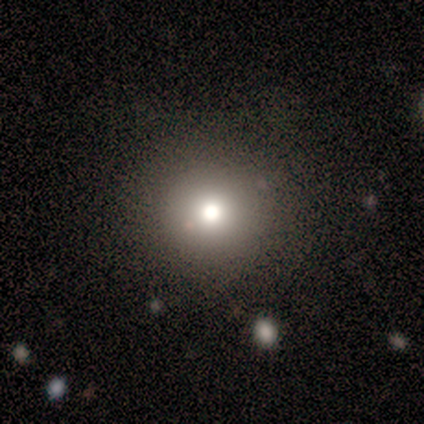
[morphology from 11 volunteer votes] Smooth or featured?
  - smooth: 73% *
  - featured or disk: 18%
  - star or artifact: 9%
How rounded?
  - round: 100% *
  - in between: 0%
  - cigar-shaped: 0%
Merging?
  - none: 90% *
  - minor disturbance: 10%
  - major disturbance: 0%
  - merger: 0%